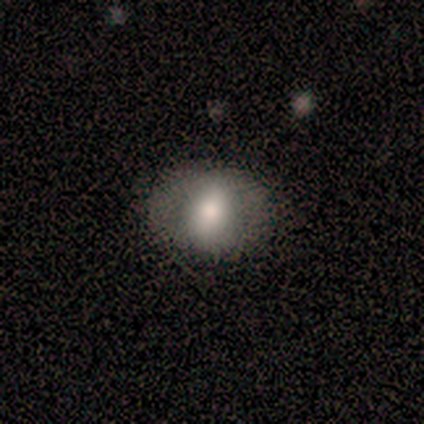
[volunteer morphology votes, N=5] This appears to be a featured or disk galaxy (60%) with no bar (67%), no spiral arms (100%) and a moderate central bulge (67%). Merging: none (100%).